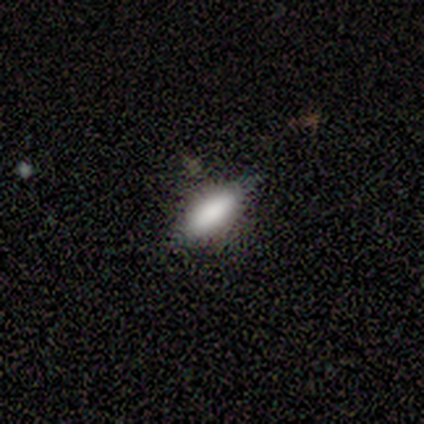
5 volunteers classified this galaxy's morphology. Smooth or featured: smooth — 80% (star or artifact — 20%)
How rounded: in between — 50% (tied with cigar-shaped — 50%)
Merging: none — 100%